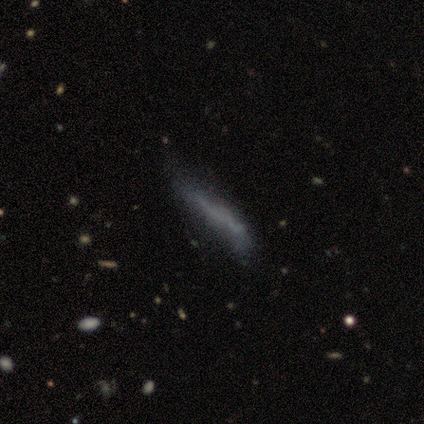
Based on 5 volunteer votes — This appears to be a smooth galaxy with no disk features (60%) that is in between round and cigar-shaped (67%). Merging: none (40%, tied with major disturbance).